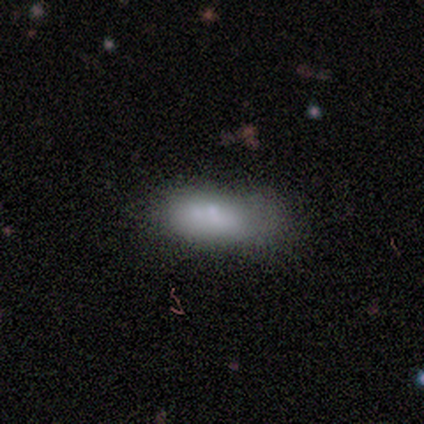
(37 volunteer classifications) Morphology: type=smooth (76%); roundness=in between (86%); merging=none (36%).